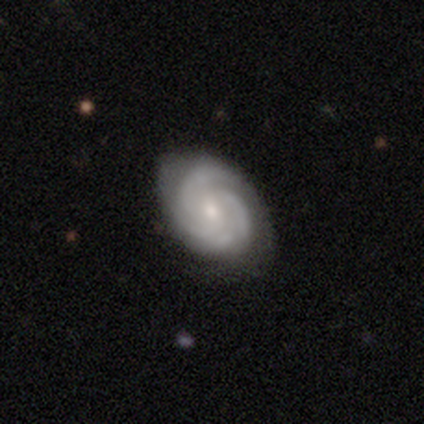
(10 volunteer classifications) Q: Smooth or featured?
A: featured or disk (90%); runner-up: smooth (10%)
Q: Edge-on disk?
A: no (100%)
Q: Bar?
A: no (56%); runner-up: weak (44%)
Q: Spiral arms?
A: yes (100%)
Q: Spiral winding?
A: medium (67%); runner-up: tight (33%)
Q: Spiral arm count?
A: 3 (56%); runner-up: 4 (33%)
Q: Bulge size?
A: small (67%); runner-up: moderate (33%)
Q: Merging?
A: none (70%); runner-up: minor disturbance (20%)